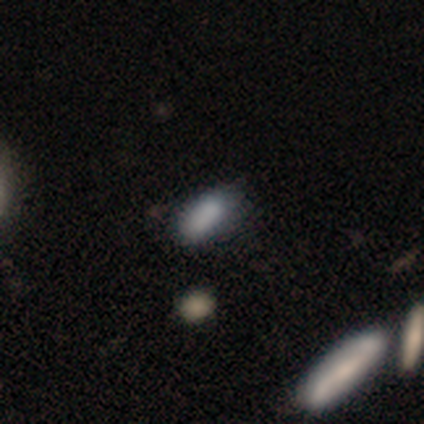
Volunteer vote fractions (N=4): Volunteers were most divided on "how rounded": in between: 75%, cigar-shaped: 25%, round: 0%. More confident: smooth or featured — smooth (100%); merging — none (75%).